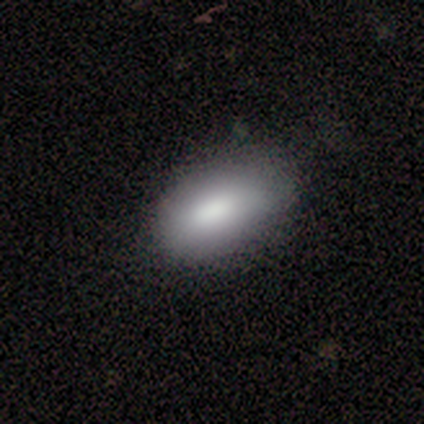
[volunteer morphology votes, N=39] Smooth or featured: smooth — 79% (star or artifact — 13%)
How rounded: in between — 90% (round — 6%)
Merging: none — 74% (minor disturbance — 26%)